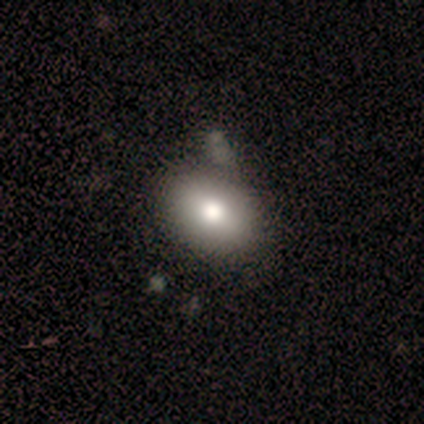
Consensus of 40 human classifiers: Morphology: type=smooth (78%); roundness=in between (84%); merging=none (23%, tied with merger).